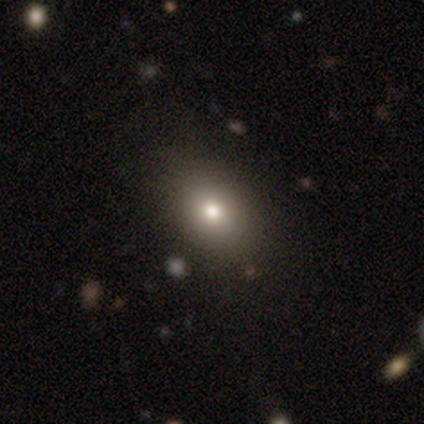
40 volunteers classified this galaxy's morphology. smooth-or-featured: smooth: 80% | featured or disk: 10% | star or artifact: 10%
  how-rounded: in between: 72% | round: 22% | cigar-shaped: 6%
  merging: none: 78% | minor disturbance: 17% | major disturbance: 6% | merger: 0%